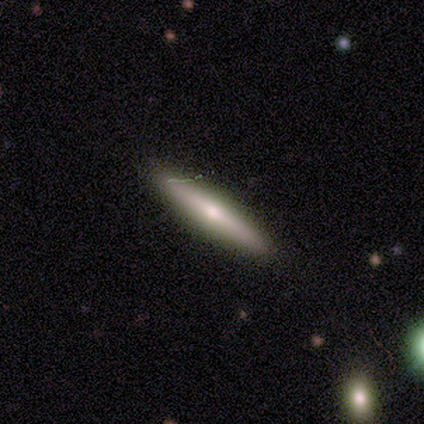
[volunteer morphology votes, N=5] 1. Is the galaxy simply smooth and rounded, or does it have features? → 60% featured or disk, 40% smooth, 0% star or artifact.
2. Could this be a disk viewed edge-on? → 67% yes, 33% no.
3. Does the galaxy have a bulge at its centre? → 100% rounded, 0% boxy, 0% none.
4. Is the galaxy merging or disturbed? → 100% none, 0% minor disturbance, 0% major disturbance, 0% merger.